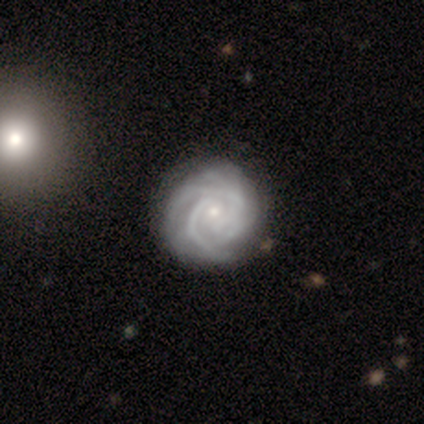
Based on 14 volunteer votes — Volunteers were most divided on "spiral arm count": 2: 42%, 3: 25%, can't tell: 25%, more than 4: 8%, 1: 0%, 4: 0%. More confident: edge-on disk — no (100%); smooth or featured — featured or disk (93%); spiral arms — yes (92%); bulge size — small (77%); spiral winding — tight (75%); merging — none (71%); bar — no (69%).